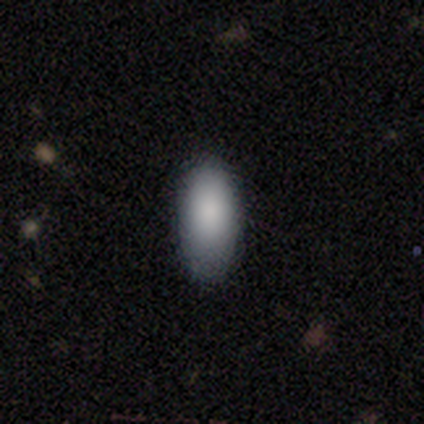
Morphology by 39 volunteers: Overall: smooth (92%). How rounded: in between (97%). Merging: none (66%).